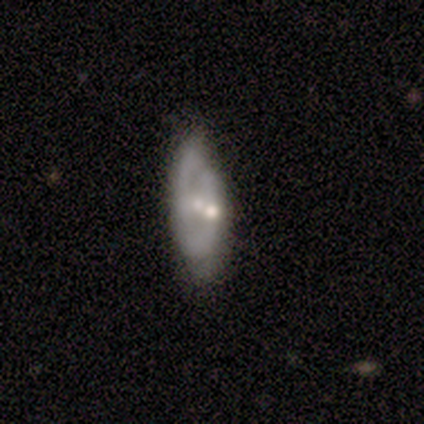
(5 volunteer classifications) This is clearly a featured or disk galaxy (100%). It is clearly not viewed edge-on (100%). Bar: clearly no (100%). Spiral arm pattern: clearly no (80%). Central bulge: likely moderate (60%). Merging: likely none (60%).